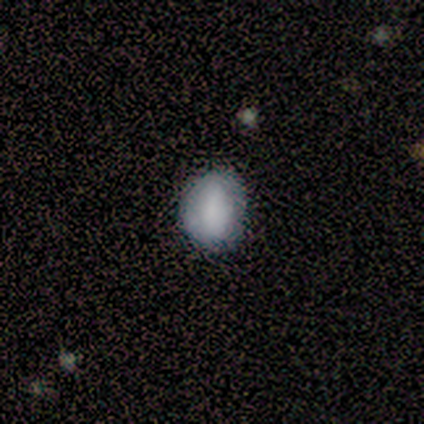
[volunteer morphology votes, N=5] A smooth galaxy with no disk features (80%) that is round (50%).

Vote fractions:
- Smooth or featured? smooth: 80% / star or artifact: 20% / featured or disk: 0%
- How rounded? round: 50% / in between: 25% / cigar-shaped: 25%
- Merging? none: 75% / minor disturbance: 25% / major disturbance: 0% / merger: 0%